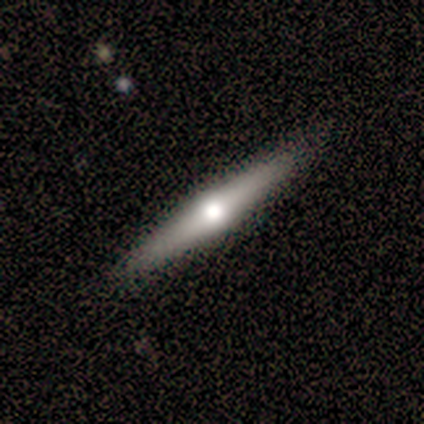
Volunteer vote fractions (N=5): Volunteers were most divided on "smooth or featured": featured or disk: 60%, smooth: 40%, star or artifact: 0%. More confident: edge-on disk — yes (100%); edge-on bulge — rounded (100%); merging — none (80%).